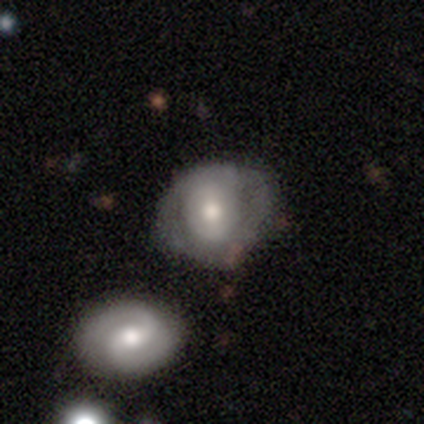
Morphology: type=featured or disk (56%); edge-on=no (98%); bar=no (60%); spiral arms=no (54%); bulge=moderate (68%); merging=none (55%).